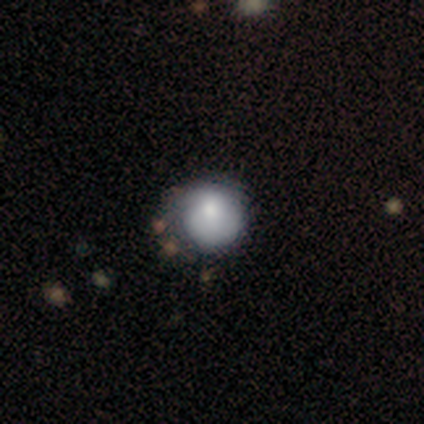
A smooth galaxy with no disk features (60%) that is round (92%).

Vote fractions:
- Smooth or featured? smooth: 60% / featured or disk: 38% / star or artifact: 2%
- How rounded? round: 92% / in between: 8% / cigar-shaped: 0%
- Merging? none: 38% / minor disturbance: 26% / major disturbance: 8% / merger: 5%